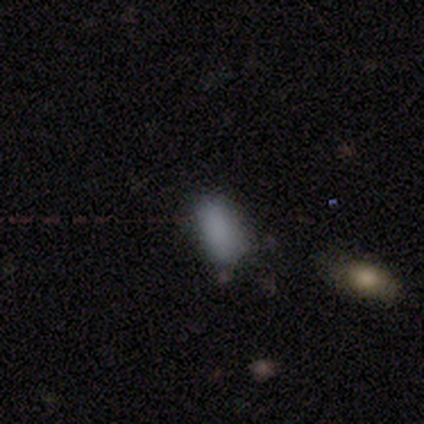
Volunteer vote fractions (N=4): Smooth or featured? smooth (50%, tied with star or artifact)
How rounded? in between (100%)
Merging? minor disturbance (100%)